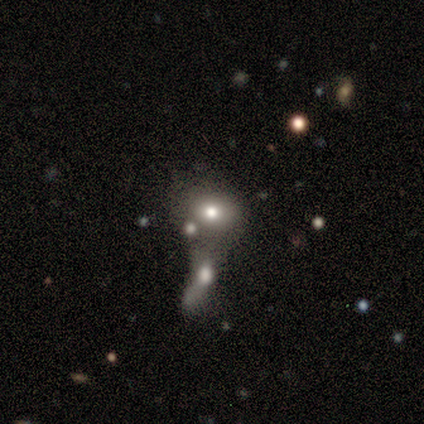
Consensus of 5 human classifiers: Smooth or featured? star or artifact (60%)